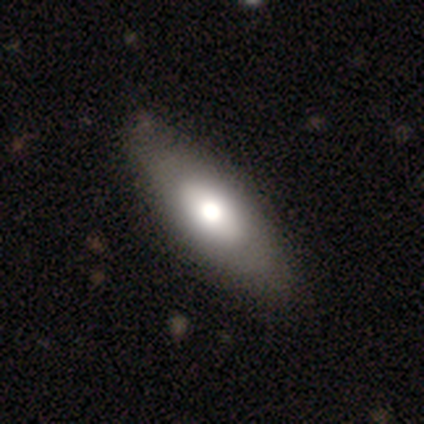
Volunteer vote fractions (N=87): Smooth or featured?
  - smooth: 59% *
  - featured or disk: 39%
  - star or artifact: 2%
How rounded?
  - in between: 82% *
  - cigar-shaped: 16%
  - round: 2%
Merging?
  - none: 84% *
  - minor disturbance: 14%
  - major disturbance: 2%
  - merger: 0%